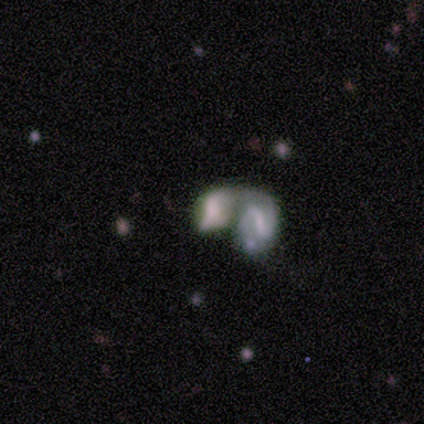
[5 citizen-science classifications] A featured or disk galaxy (60%) with a strong bar (33%, tied with weak and no), no spiral arms (67%) and a moderate central bulge (33%, tied with small and none).

Vote fractions:
- Smooth or featured? featured or disk: 60% / smooth: 40% / star or artifact: 0%
- Edge-on disk? no: 100% / yes: 0%
- Bar? strong: 33% (tied) / weak: 33% (tied) / no: 33% (tied)
- Spiral arms? no: 67% / yes: 33%
- Bulge size? moderate: 33% (tied) / small: 33% (tied) / none: 33% (tied) / dominant: 0% / large: 0%
- Merging? merger: 80% / none: 20% / minor disturbance: 0% / major disturbance: 0%